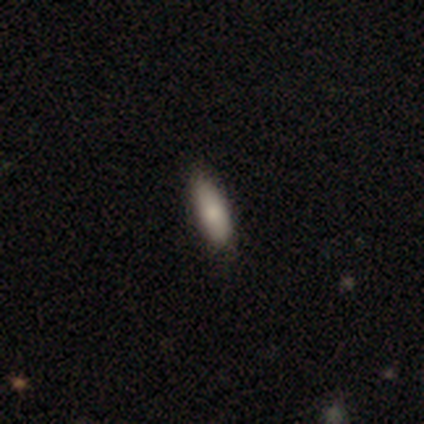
smooth-or-featured: smooth: 75% | featured or disk: 25% | star or artifact: 0%
  how-rounded: in between: 67% | cigar-shaped: 33% | round: 0%
  merging: none: 75% | minor disturbance: 25% | major disturbance: 0% | merger: 0%